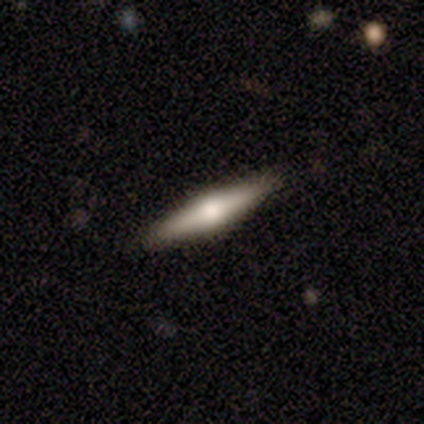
smooth_or_featured: featured or disk (p=0.80) [alt: star or artifact p=0.20]
disk_edge_on: yes (p=1.00)
edge_on_bulge: rounded (p=1.00)
merging: none (p=1.00)